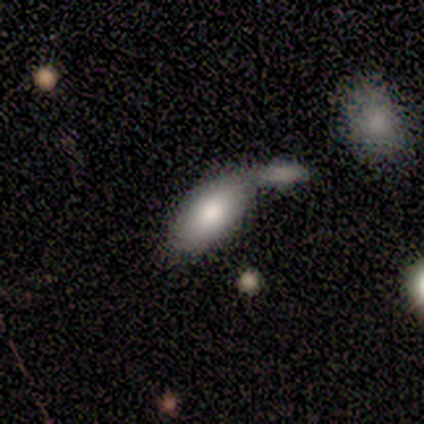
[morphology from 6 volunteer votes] Smooth or featured? smooth (100%)
How rounded? in between (83%)
Merging? none (50%)